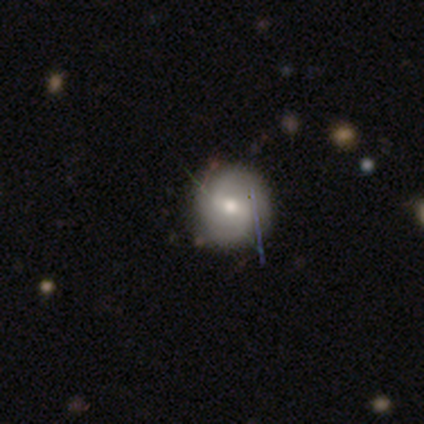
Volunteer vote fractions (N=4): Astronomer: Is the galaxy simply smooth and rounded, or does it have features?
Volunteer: smooth — 50%, tied with featured or disk at 50%.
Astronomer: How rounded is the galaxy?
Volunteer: round — 100%.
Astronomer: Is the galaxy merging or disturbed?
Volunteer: none — 75%.